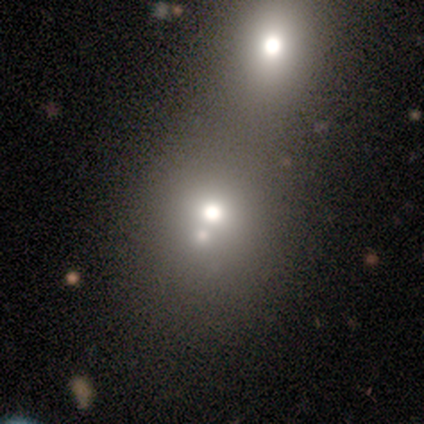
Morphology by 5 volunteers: Volunteers were most divided on "merging": merger: 60%, none: 40%, minor disturbance: 0%, major disturbance: 0%. More confident: how rounded — round (100%); smooth or featured — smooth (80%).